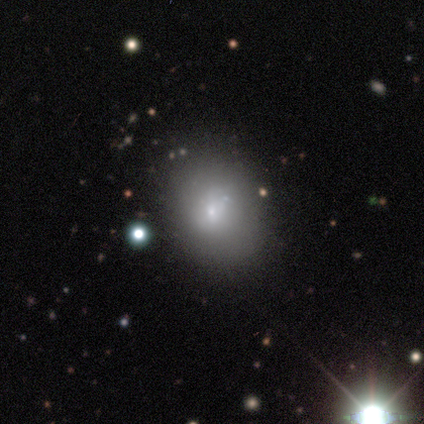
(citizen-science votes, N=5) smooth-or-featured: smooth: 40% (tied) | featured or disk: 40% (tied) | star or artifact: 20%
  how-rounded: round: 50% (tied) | in between: 50% (tied) | cigar-shaped: 0%
  merging: none: 50% | minor disturbance: 25% | major disturbance: 25% | merger: 0%